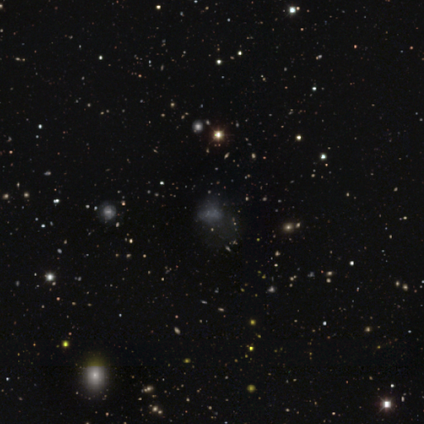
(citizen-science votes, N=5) Smooth or featured: star or artifact — 80% (smooth — 20%)